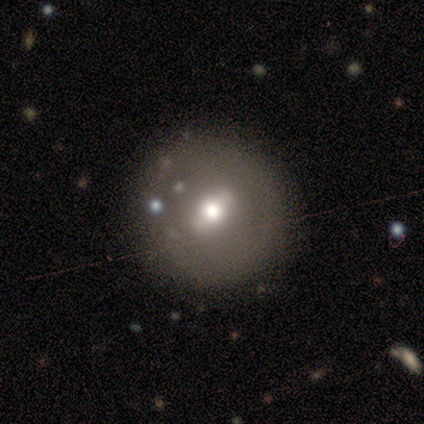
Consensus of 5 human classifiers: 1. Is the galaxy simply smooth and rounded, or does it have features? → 60% featured or disk, 40% smooth, 0% star or artifact.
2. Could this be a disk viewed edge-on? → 67% no, 33% yes.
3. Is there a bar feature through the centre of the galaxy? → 50% strong (tied), 50% weak (tied), 0% no.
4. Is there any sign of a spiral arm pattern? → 100% no, 0% yes.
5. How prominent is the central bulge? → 100% moderate, 0% dominant, 0% large, 0% small, 0% none.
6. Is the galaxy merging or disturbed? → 40% none (tied), 40% minor disturbance (tied), 20% major disturbance, 0% merger.